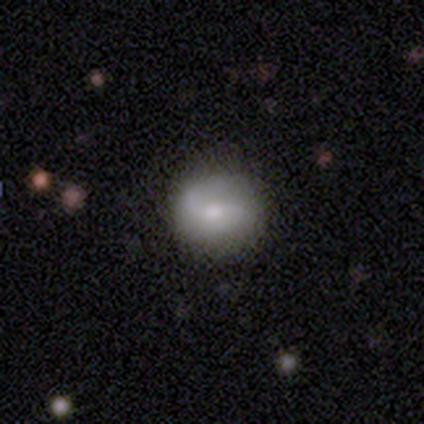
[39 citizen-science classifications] A smooth galaxy with no disk features (54%) that is round (90%). Merging: none (74%).